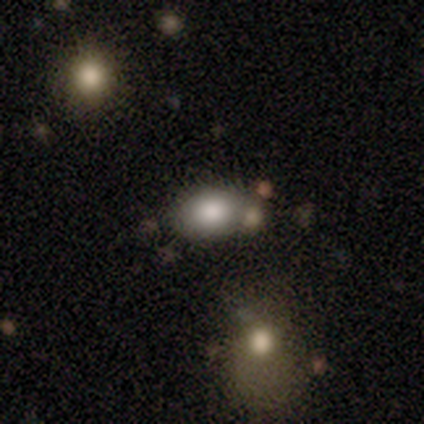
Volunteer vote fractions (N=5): A smooth galaxy with no disk features (60%) that is in between round and cigar-shaped (100%). Merging: none (60%).